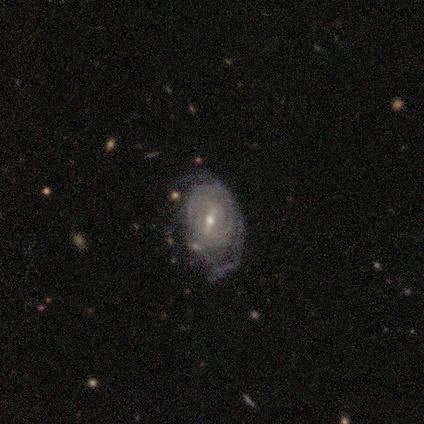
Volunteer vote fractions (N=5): Overall: featured or disk (100%). Edge-on disk: no (80%). Bar: weak (75%). Spiral arms: yes (100%). Spiral arm count: 1 (25%, tied with 2, 3 and 4). Spiral winding: medium (75%). Bulge size: moderate (50%, tied with small). Merging: none (60%; minor disturbance 20%).